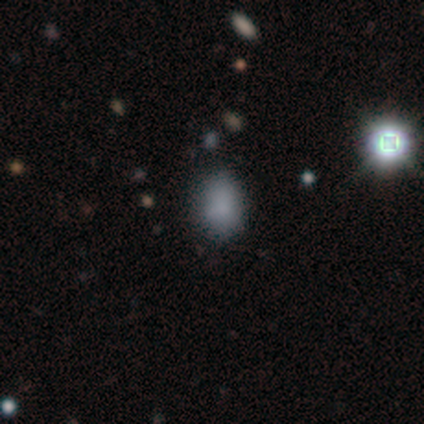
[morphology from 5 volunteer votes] This is clearly a smooth galaxy (100%). How rounded: clearly in between (80%). Merging: clearly none (80%).